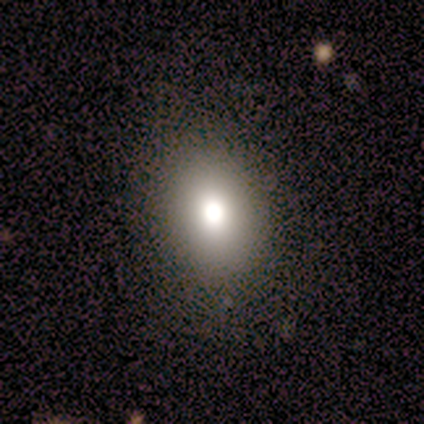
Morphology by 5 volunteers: smooth_or_featured: smooth (p=0.60) [alt: featured or disk p=0.20]
how_rounded: in between (p=0.67) [alt: round p=0.33]
merging: none (p=1.00)